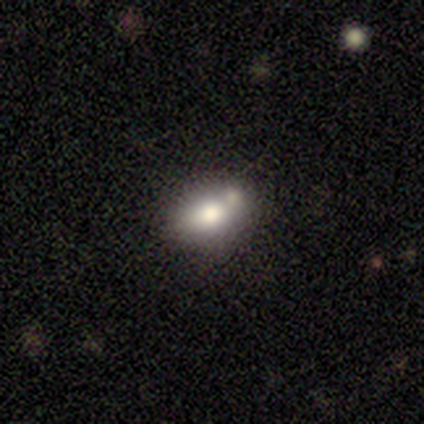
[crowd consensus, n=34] Overall: smooth (76%). How rounded: in between (69%). Merging: none (45%; merger 32%).